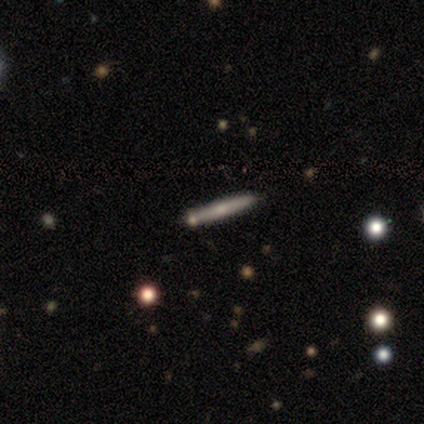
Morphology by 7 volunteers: smooth-or-featured: smooth: 57% | featured or disk: 29% | star or artifact: 14%
  how-rounded: cigar-shaped: 100% | round: 0% | in between: 0%
  merging: none: 83% | minor disturbance: 17% | major disturbance: 0% | merger: 0%